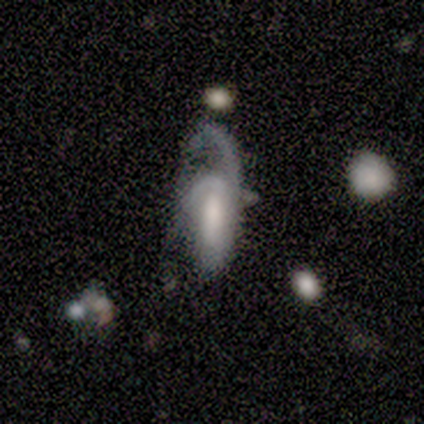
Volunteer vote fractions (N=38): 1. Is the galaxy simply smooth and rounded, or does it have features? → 66% featured or disk, 21% smooth, 13% star or artifact.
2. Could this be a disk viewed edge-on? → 92% no, 8% yes.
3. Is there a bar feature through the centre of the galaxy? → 43% weak, 39% no, 17% strong.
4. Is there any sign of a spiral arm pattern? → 91% yes, 9% no.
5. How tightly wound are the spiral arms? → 43% medium (tied), 43% loose (tied), 14% tight.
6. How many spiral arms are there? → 62% 2, 38% 1, 0% 3, 0% 4, 0% more than 4, 0% can't tell.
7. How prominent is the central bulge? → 39% moderate, 22% large, 17% none, 13% small, 9% dominant.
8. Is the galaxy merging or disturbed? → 61% major disturbance, 24% none, 15% minor disturbance, 0% merger.